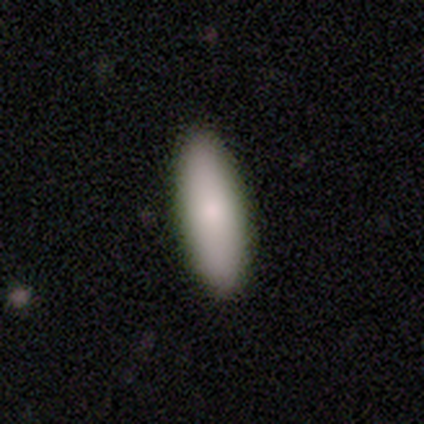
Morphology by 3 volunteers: A smooth galaxy with no disk features (100%) that is in between round and cigar-shaped (100%).

Vote fractions:
- Smooth or featured? smooth: 100% / featured or disk: 0% / star or artifact: 0%
- How rounded? in between: 100% / round: 0% / cigar-shaped: 0%
- Merging? none: 100% / minor disturbance: 0% / major disturbance: 0% / merger: 0%